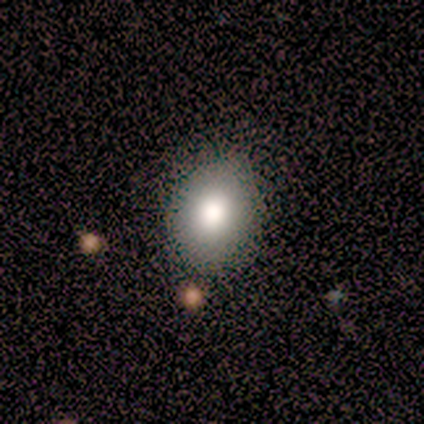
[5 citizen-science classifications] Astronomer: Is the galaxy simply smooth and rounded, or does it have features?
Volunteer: smooth — 80%.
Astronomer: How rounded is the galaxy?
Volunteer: round — 50%, tied with in between at 50%.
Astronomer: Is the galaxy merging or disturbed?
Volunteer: none — 100%.